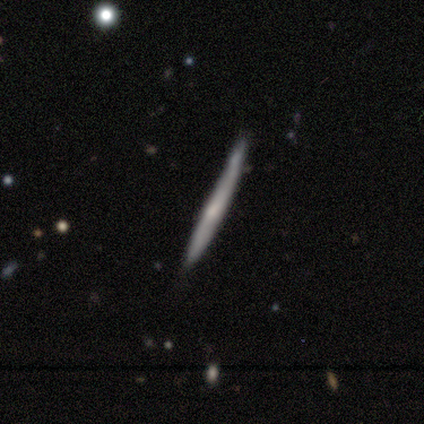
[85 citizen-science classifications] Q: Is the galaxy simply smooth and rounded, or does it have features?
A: featured or disk — 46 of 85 (54%).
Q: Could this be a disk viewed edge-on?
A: yes — 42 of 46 (91%).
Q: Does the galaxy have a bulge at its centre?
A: none — 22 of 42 (52%).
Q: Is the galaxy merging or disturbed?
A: none — 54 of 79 (68%).